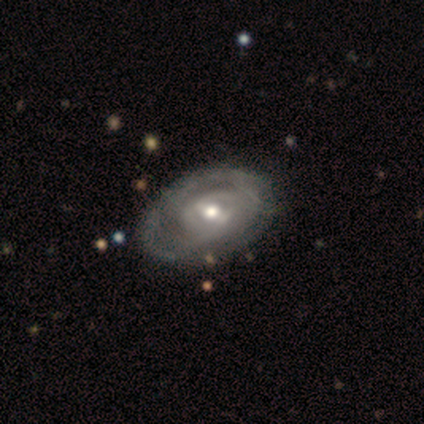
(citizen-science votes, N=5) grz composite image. It shows a featured or disk galaxy (100%) with a weak bar (60%), tight (100%) spiral arms (60%) and a moderate central bulge (100%). Merging: none (100%).